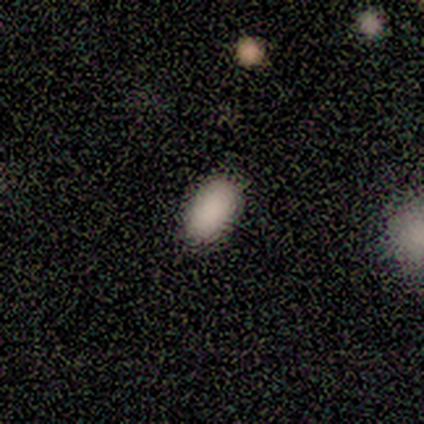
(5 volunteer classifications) Overall: smooth (80%). How rounded: in between (75%). Merging: none (75%).